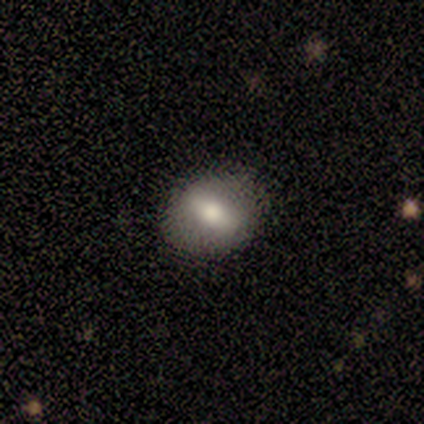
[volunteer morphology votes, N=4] Smooth or featured? 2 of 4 (50%) said smooth. How rounded? 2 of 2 (100%) said in between. Merging? 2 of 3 (67%) said minor disturbance.